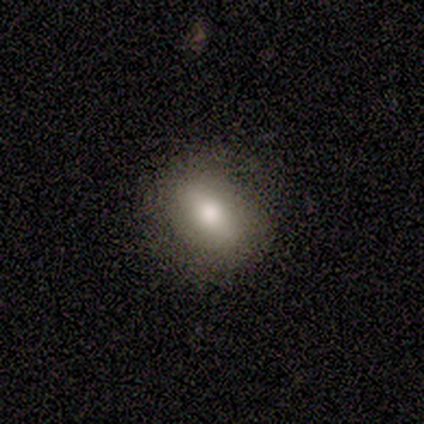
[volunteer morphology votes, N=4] Volunteers were most divided on "how rounded": in between: 75%, round: 25%, cigar-shaped: 0%. More confident: smooth or featured — smooth (100%); merging — none (100%).